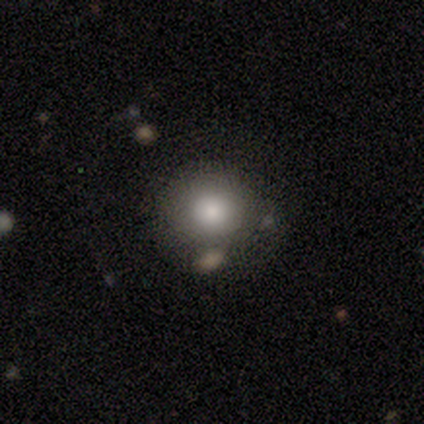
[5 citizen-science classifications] Morphology: type=smooth (100%); roundness=round (80%); merging=none (80%).